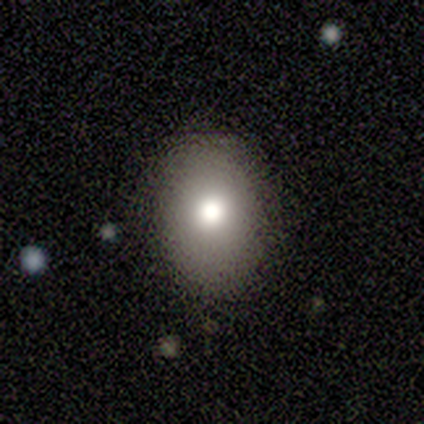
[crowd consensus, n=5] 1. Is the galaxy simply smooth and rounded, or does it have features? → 80% smooth, 20% featured or disk, 0% star or artifact.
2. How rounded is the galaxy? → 50% round (tied), 50% in between (tied), 0% cigar-shaped.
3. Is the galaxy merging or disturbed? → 80% none, 20% minor disturbance, 0% major disturbance, 0% merger.